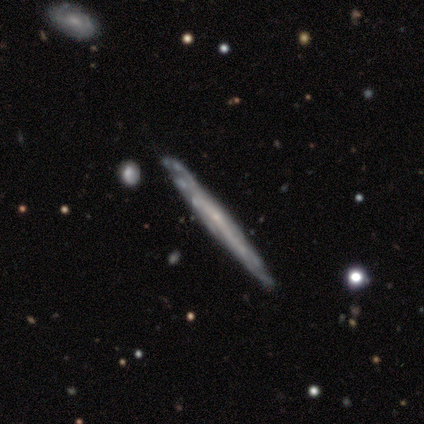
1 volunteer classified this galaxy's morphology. Q: Smooth or featured?
A: smooth (100%)
Q: How rounded?
A: cigar-shaped (100%)
Q: Merging?
A: none (100%)